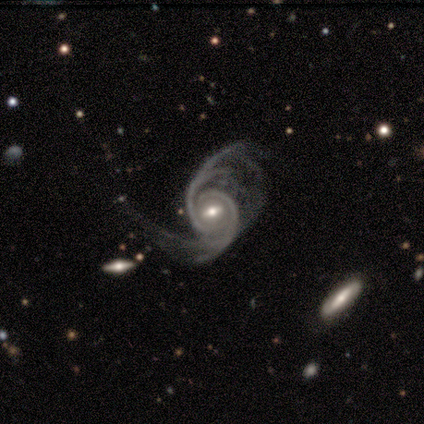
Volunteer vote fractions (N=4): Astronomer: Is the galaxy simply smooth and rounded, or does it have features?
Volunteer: featured or disk — 75%.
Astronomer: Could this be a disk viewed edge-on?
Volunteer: no — 67%.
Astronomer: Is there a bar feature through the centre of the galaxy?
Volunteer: strong — 50%, tied with weak at 50%.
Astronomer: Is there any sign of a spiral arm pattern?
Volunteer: yes — 100%.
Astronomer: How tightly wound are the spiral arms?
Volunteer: tight — 50%, tied with loose at 50%.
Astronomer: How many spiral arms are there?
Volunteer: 4 — 50%, tied with can't tell at 50%.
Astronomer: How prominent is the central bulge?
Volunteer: moderate — 100%.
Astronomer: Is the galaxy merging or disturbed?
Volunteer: major disturbance — 67%.